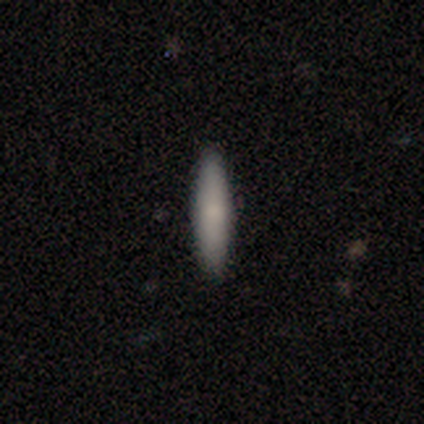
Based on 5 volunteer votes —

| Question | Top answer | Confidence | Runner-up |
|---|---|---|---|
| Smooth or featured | smooth | 100% | — |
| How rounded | cigar-shaped | 100% | — |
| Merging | none | 80% | minor disturbance (20%) |